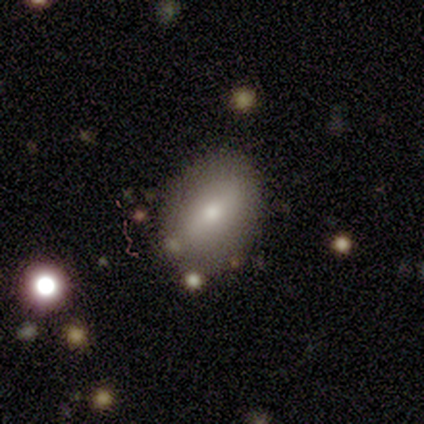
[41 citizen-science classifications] Overall: smooth (78%). How rounded: in between (75%). Merging: none (57%).